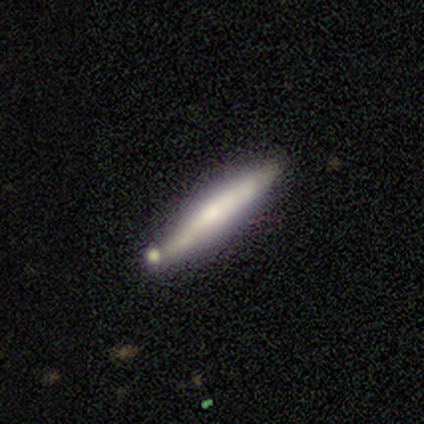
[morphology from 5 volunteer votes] This is clearly a smooth galaxy (80%). How rounded: clearly cigar-shaped (100%). Merging: clearly none (100%).